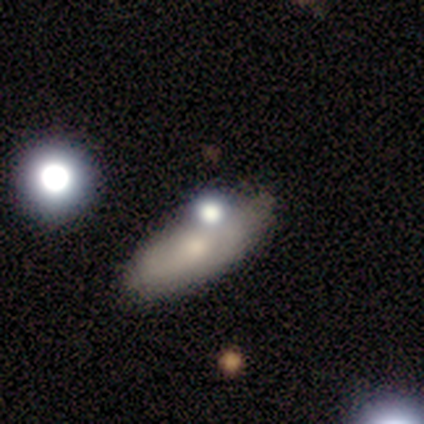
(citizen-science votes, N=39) Morphology: type=smooth (69%); roundness=in between (81%); merging=none (67%).